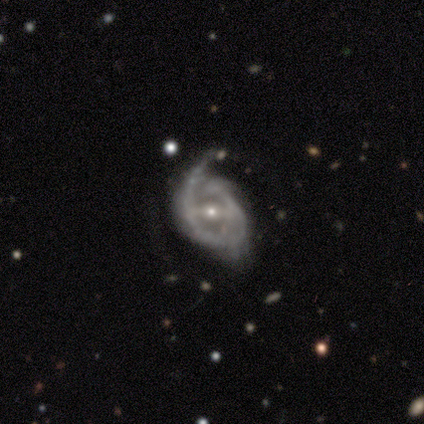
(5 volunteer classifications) smooth_or_featured: featured or disk (p=1.00)
disk_edge_on: no (p=1.00)
bar: strong (p=0.60) [alt: weak p=0.20]
has_spiral_arms: yes (p=0.80) [alt: no p=0.20]
spiral_winding: medium (p=0.75) [alt: loose p=0.25]
spiral_arm_count: 2 (p=1.00)
bulge_size: small (p=0.60) [alt: moderate p=0.40]
merging: minor disturbance (p=0.60) [alt: none p=0.20]